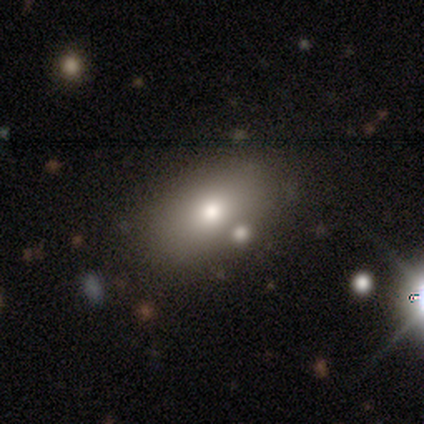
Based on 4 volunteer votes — smooth 75%, featured or disk 25%, star or artifact 0%. Down the decision tree: how rounded — in between (100%); merging — none (75%).